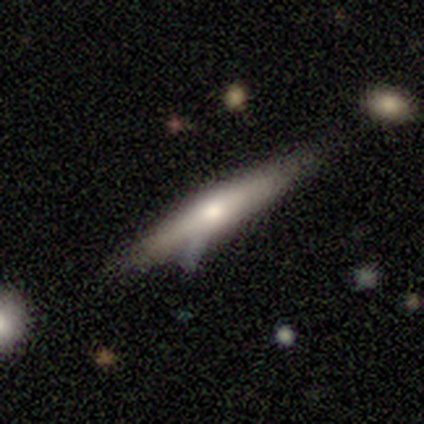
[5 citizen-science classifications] smooth_or_featured: featured or disk (p=0.60) [alt: smooth p=0.40]
disk_edge_on: yes (p=0.67) [alt: no p=0.33]
edge_on_bulge: none (p=0.50) [tied with: rounded p=0.50]
merging: none (p=0.80) [alt: minor disturbance p=0.20]